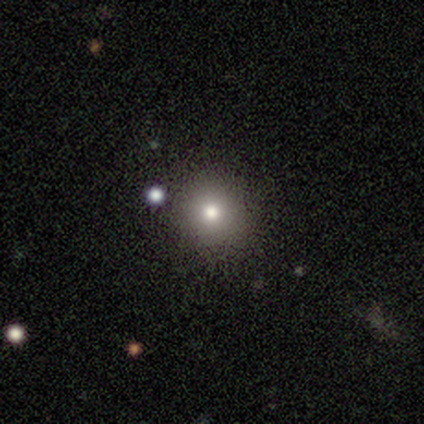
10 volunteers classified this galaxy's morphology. A smooth galaxy with no disk features (90%) that is round (100%).

Vote fractions:
- Smooth or featured? smooth: 90% / star or artifact: 10% / featured or disk: 0%
- How rounded? round: 100% / in between: 0% / cigar-shaped: 0%
- Merging? none: 100% / minor disturbance: 0% / major disturbance: 0% / merger: 0%